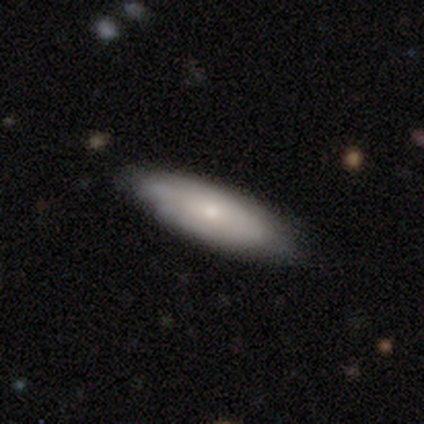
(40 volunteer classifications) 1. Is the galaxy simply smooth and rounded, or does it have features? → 60% smooth, 38% featured or disk, 2% star or artifact.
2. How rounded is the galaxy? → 75% in between, 25% cigar-shaped, 0% round.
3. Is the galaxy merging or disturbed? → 72% none, 23% minor disturbance, 5% major disturbance, 0% merger.